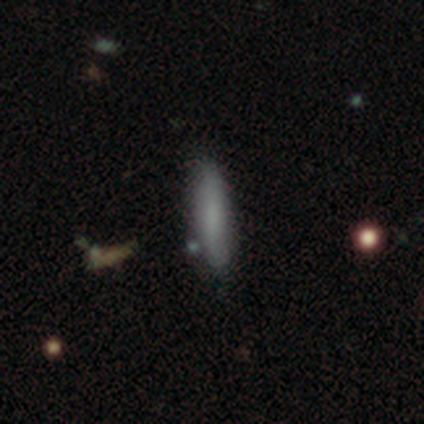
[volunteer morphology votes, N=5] Smooth or featured: featured or disk — 60% (smooth — 40%)
Edge-on disk: yes — 67% (no — 33%)
Edge-on bulge: boxy — 50% (tied with none — 50%)
Merging: none — 60% (minor disturbance — 20%)